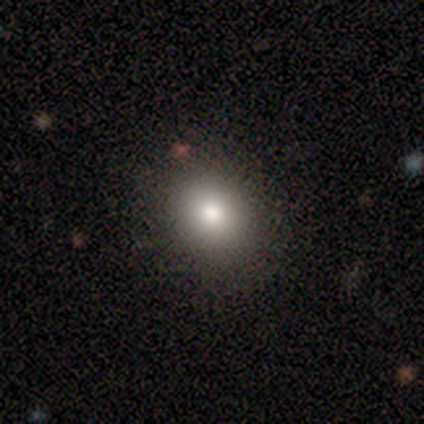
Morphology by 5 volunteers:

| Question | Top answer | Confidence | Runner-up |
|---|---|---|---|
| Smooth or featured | smooth | 80% | star or artifact (20%) |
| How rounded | round | 100% | — |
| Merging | none | 100% | — |